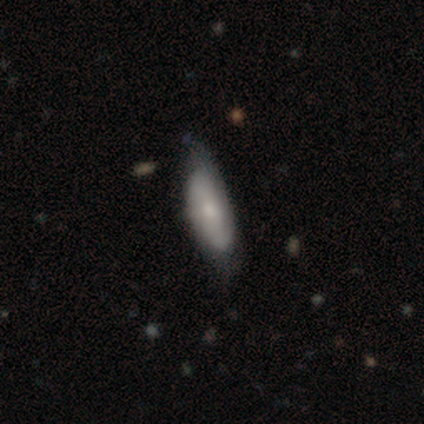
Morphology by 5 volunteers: Q: Smooth or featured?
A: smooth (60%); runner-up: featured or disk (20%)
Q: How rounded?
A: in between (67%); runner-up: cigar-shaped (33%)
Q: Merging?
A: none (100%)